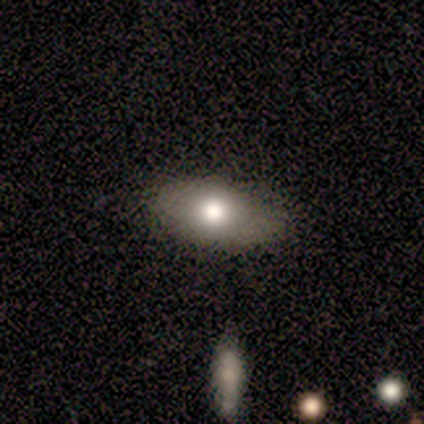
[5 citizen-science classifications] Overall: smooth (80%). How rounded: in between (75%). Merging: none (80%).